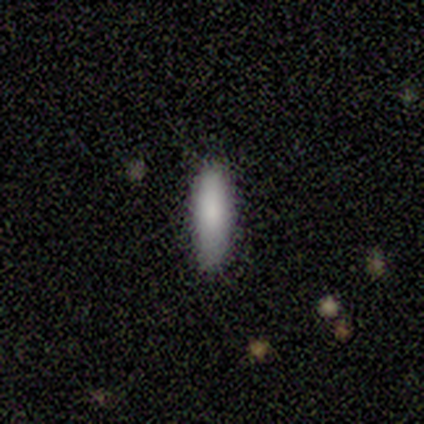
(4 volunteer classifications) This is clearly a smooth galaxy (100%). How rounded: clearly cigar-shaped (100%). Merging: clearly none (100%).